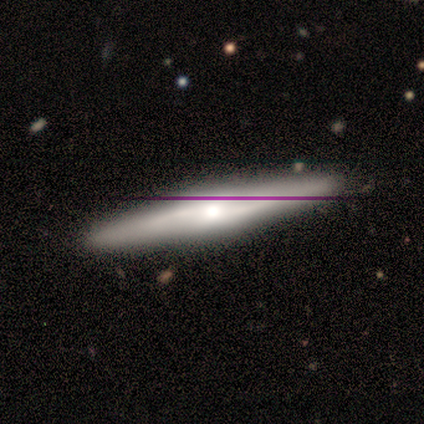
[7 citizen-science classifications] Volunteers were most divided on "smooth or featured": featured or disk: 43%, smooth: 29%, star or artifact: 29%. More confident: edge-on disk — yes (100%); edge-on bulge — rounded (100%); merging — none (100%).